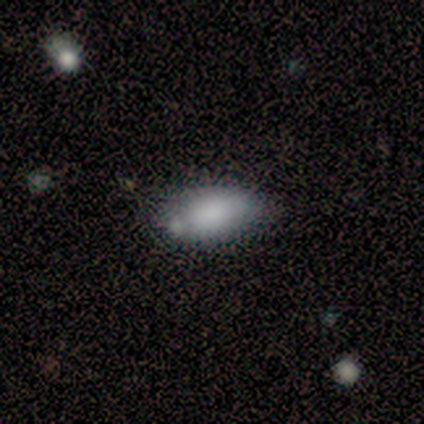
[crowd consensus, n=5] smooth-or-featured: smooth: 100% | featured or disk: 0% | star or artifact: 0%
  how-rounded: in between: 100% | round: 0% | cigar-shaped: 0%
  merging: none: 80% | minor disturbance: 20% | major disturbance: 0% | merger: 0%